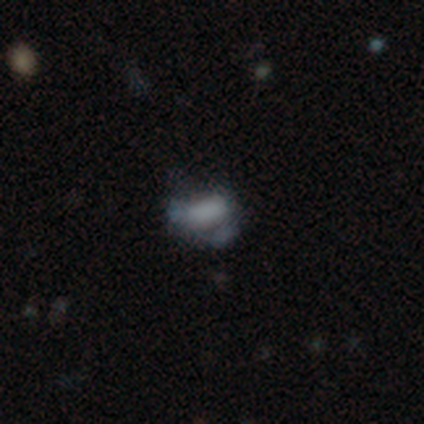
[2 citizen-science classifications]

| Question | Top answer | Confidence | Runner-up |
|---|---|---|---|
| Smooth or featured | smooth | 50% | tied: featured or disk (50%) |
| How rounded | in between | 100% | — |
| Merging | none | 50% | tied: major disturbance (50%) |